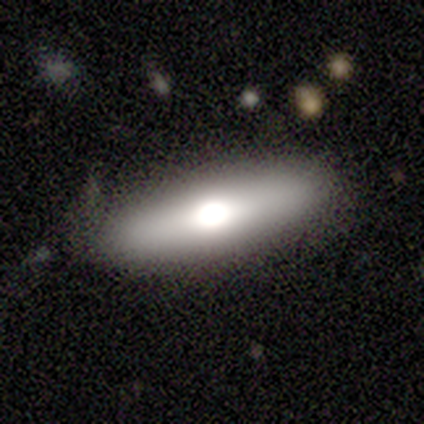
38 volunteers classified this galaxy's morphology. smooth_or_featured: smooth (p=0.63) [alt: featured or disk p=0.34]
how_rounded: cigar-shaped (p=0.58) [alt: in between p=0.42]
merging: none (p=0.89) [alt: minor disturbance p=0.08]